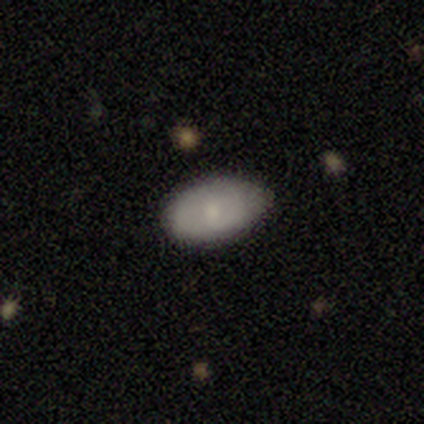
Q: Smooth or featured?
A: smooth (40%); tied with: star or artifact (40%)
Q: How rounded?
A: in between (100%)
Q: Merging?
A: none (67%); runner-up: minor disturbance (33%)